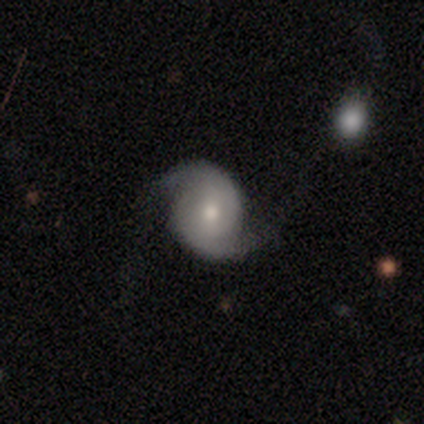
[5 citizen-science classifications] Q: Smooth or featured?
A: featured or disk (100%)
Q: Edge-on disk?
A: no (100%)
Q: Bar?
A: no (60%); runner-up: weak (40%)
Q: Spiral arms?
A: yes (80%); runner-up: no (20%)
Q: Spiral winding?
A: tight (50%); tied with: loose (50%)
Q: Spiral arm count?
A: 2 (100%)
Q: Bulge size?
A: small (60%); runner-up: moderate (40%)
Q: Merging?
A: none (60%); runner-up: minor disturbance (20%)